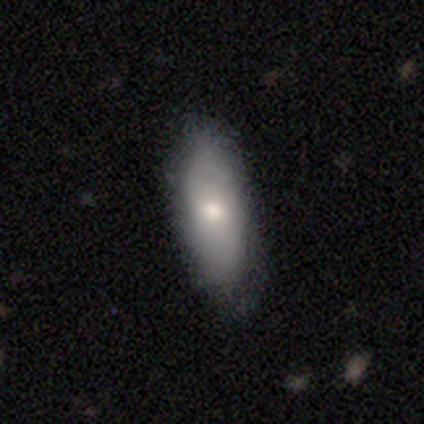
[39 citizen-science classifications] A smooth galaxy with no disk features (72%) that is in between round and cigar-shaped (71%).

Vote fractions:
- Smooth or featured? smooth: 72% / featured or disk: 26% / star or artifact: 3%
- How rounded? in between: 71% / cigar-shaped: 29% / round: 0%
- Merging? none: 79% / minor disturbance: 16% / major disturbance: 5% / merger: 0%